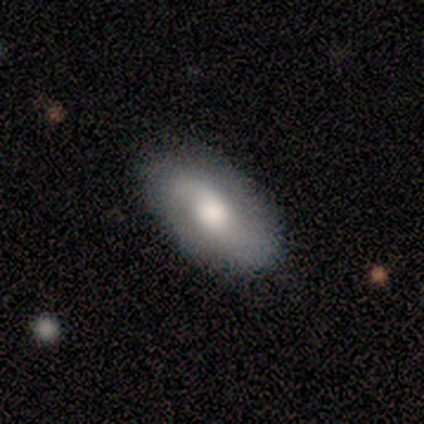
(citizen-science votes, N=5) smooth-or-featured: smooth: 80% | featured or disk: 20% | star or artifact: 0%
  how-rounded: in between: 100% | round: 0% | cigar-shaped: 0%
  merging: none: 80% | minor disturbance: 20% | major disturbance: 0% | merger: 0%